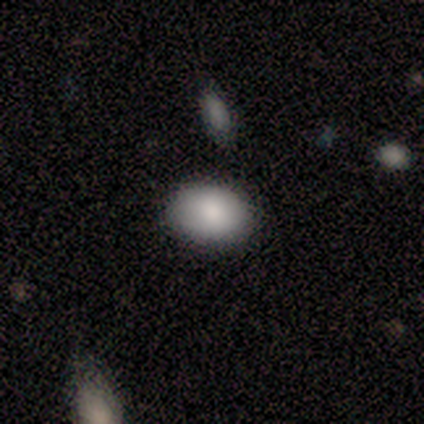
Volunteers were most divided on "how rounded": in between: 75%, round: 25%, cigar-shaped: 0%. More confident: merging — none (100%); smooth or featured — smooth (80%).